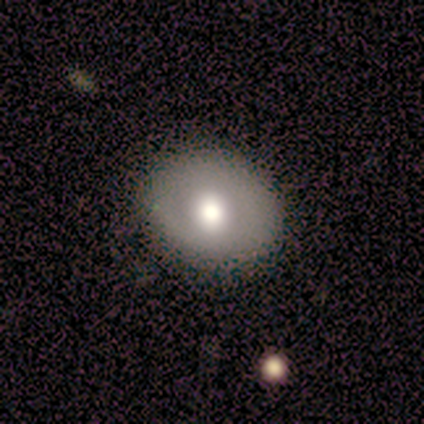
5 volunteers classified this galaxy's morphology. smooth-or-featured: smooth: 80% | star or artifact: 20% | featured or disk: 0%
  how-rounded: round: 100% | in between: 0% | cigar-shaped: 0%
  merging: none: 100% | minor disturbance: 0% | major disturbance: 0% | merger: 0%